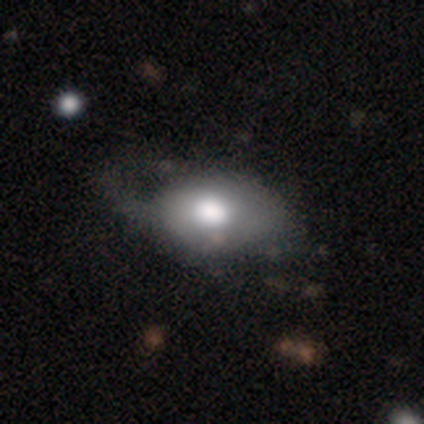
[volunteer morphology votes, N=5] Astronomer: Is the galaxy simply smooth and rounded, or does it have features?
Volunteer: smooth — 60% (runner-up: featured or disk, 40%).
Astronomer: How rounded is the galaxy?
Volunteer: in between — 67%.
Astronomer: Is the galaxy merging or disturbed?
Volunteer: major disturbance — 60% (runner-up: minor disturbance, 40%).